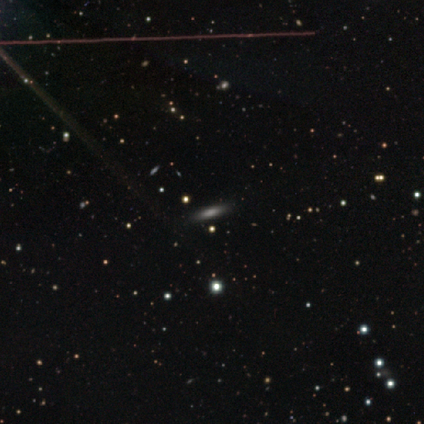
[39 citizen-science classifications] A smooth galaxy with no disk features (54%) that is cigar-shaped (52%).

Vote fractions:
- Smooth or featured? smooth: 54% / star or artifact: 33% / featured or disk: 13%
- How rounded? cigar-shaped: 52% / in between: 43% / round: 5%
- Merging? none: 96% / minor disturbance: 4% / major disturbance: 0% / merger: 0%